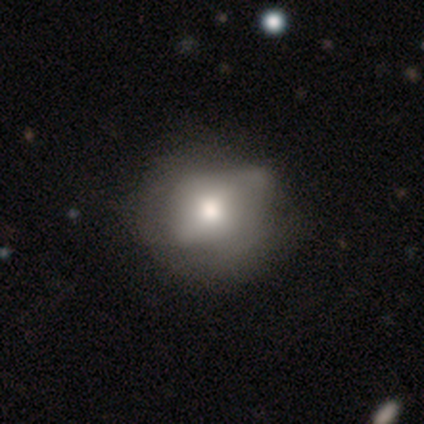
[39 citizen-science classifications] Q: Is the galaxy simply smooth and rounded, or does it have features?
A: smooth — 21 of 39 (54%).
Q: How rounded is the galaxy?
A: round — 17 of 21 (81%).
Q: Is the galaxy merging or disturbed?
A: none — 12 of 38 (32%).